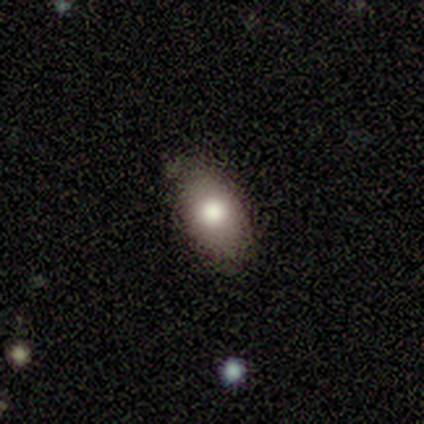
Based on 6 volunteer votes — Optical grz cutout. It shows a smooth galaxy with no disk features (100%) that is in between round and cigar-shaped (100%). Merging: none (100%).